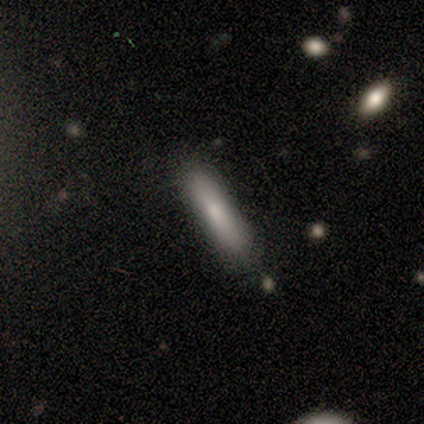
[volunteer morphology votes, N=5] Volunteers were most divided on "smooth or featured": smooth: 60%, featured or disk: 40%, star or artifact: 0%. More confident: how rounded — cigar-shaped (100%); merging — none (80%).